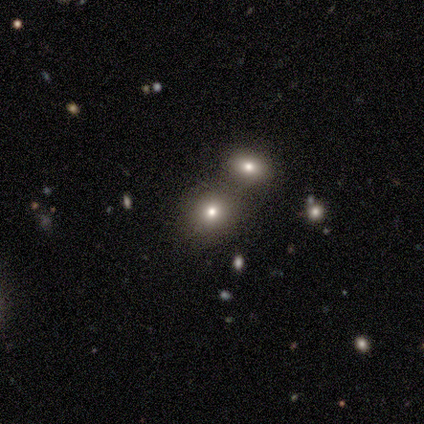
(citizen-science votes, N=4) smooth-or-featured: smooth: 50% | featured or disk: 25% | star or artifact: 25%
  how-rounded: round: 100% | in between: 0% | cigar-shaped: 0%
  merging: none: 67% | merger: 33% | minor disturbance: 0% | major disturbance: 0%